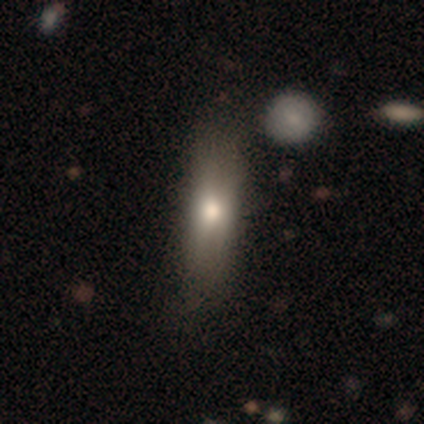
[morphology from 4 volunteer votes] This appears to be a smooth galaxy with no disk features (50%) that is cigar-shaped (100%). Merging: none (100%).